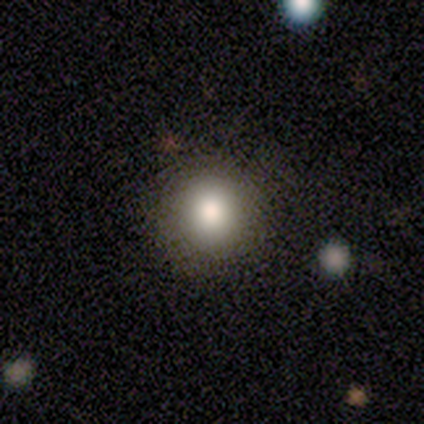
A smooth galaxy with no disk features (100%) that is round (75%).

Vote fractions:
- Smooth or featured? smooth: 100% / featured or disk: 0% / star or artifact: 0%
- How rounded? round: 75% / cigar-shaped: 25% / in between: 0%
- Merging? none: 50% / minor disturbance: 25% / major disturbance: 25% / merger: 0%